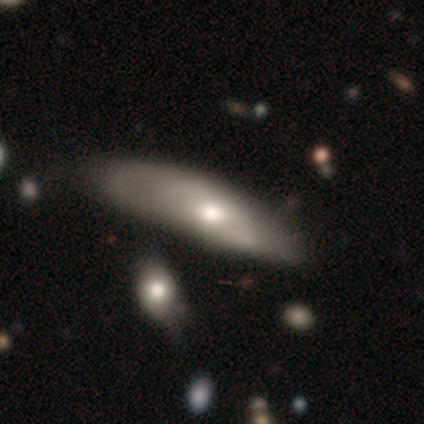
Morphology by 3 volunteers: smooth 33% (tied), featured or disk 33% (tied), star or artifact 33% (tied). Down the decision tree: how rounded — cigar-shaped (100%); merging — none (50%, tied with minor disturbance).